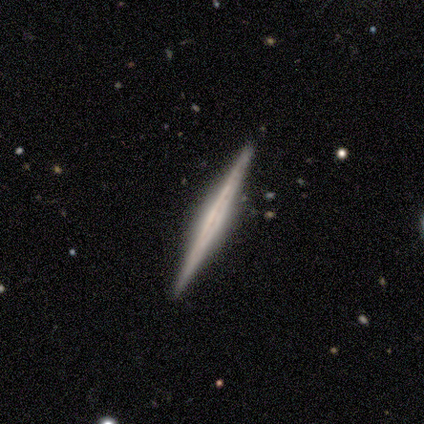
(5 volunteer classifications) smooth-or-featured: featured or disk: 60% | smooth: 20% | star or artifact: 20%
  disk-edge-on: yes: 100% | no: 0%
    edge-on-bulge: none: 67% | boxy: 33% | rounded: 0%
  merging: none: 100% | minor disturbance: 0% | major disturbance: 0% | merger: 0%